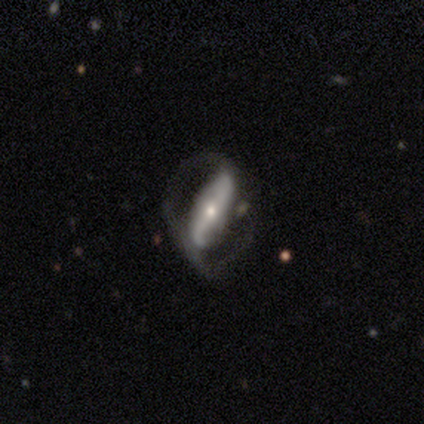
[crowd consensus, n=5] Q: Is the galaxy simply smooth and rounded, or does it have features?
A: featured or disk — 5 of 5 (100%).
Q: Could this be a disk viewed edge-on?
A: no — 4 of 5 (80%).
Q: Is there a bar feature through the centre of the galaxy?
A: strong — 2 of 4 (50%, tied with weak).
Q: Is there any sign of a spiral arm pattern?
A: yes — 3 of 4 (75%).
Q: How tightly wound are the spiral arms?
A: loose — 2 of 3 (67%).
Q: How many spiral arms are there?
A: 2 — 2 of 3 (67%).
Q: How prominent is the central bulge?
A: small — 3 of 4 (75%).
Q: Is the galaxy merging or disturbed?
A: none — 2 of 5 (40%, tied with major disturbance).